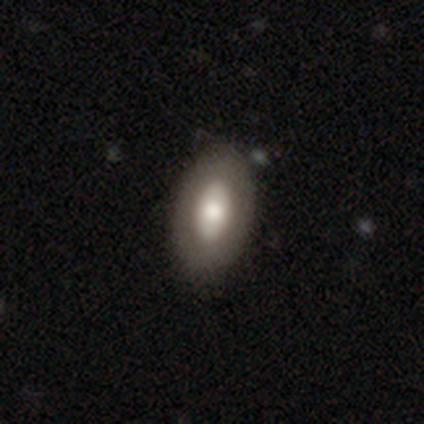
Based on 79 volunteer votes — Smooth or featured?
  - smooth: 65% *
  - featured or disk: 33%
  - star or artifact: 3%
How rounded?
  - in between: 98% *
  - round: 2%
  - cigar-shaped: 0%
Merging?
  - none: 43% *
  - minor disturbance: 6%
  - merger: 1%
  - major disturbance: 0%